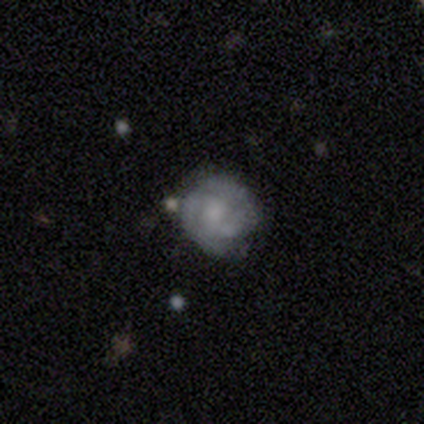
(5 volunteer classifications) featured or disk 80%, smooth 20%, star or artifact 0%. Down the decision tree: edge-on disk — no (75%); bar — strong (33%, tied with weak and no); spiral arms — yes (100%); spiral arm count — can't tell (67%); spiral winding — tight (100%); bulge size — none (67%); merging — minor disturbance (60%).